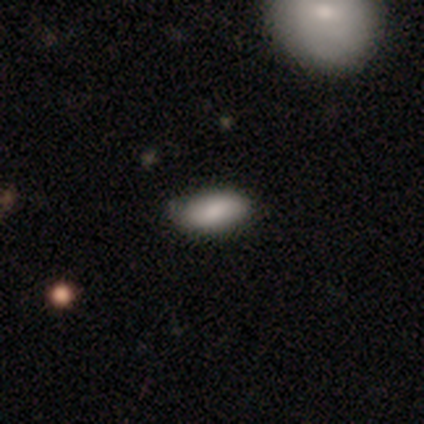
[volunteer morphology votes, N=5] Smooth or featured?
  - smooth: 80% *
  - star or artifact: 20%
  - featured or disk: 0%
How rounded?
  - in between: 100% *
  - round: 0%
  - cigar-shaped: 0%
Merging?
  - none: 75% *
  - minor disturbance: 25%
  - major disturbance: 0%
  - merger: 0%